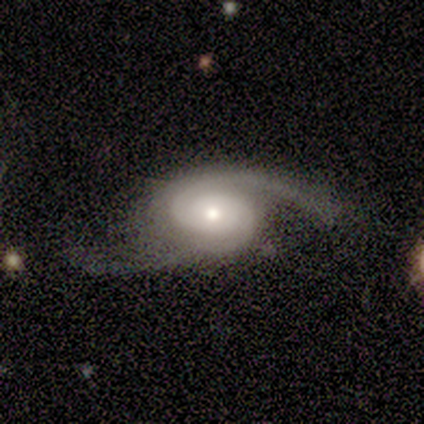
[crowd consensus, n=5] Smooth or featured? 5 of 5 (100%) said featured or disk. Edge-on disk? 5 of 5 (100%) said no. Bar? 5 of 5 (100%) said no. Spiral arms? 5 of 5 (100%) said yes. Spiral winding? 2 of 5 (40%, tied with medium) said tight. Spiral arm count? 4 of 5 (80%) said 2. Bulge size? 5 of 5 (100%) said small. Merging? 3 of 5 (60%) said none.